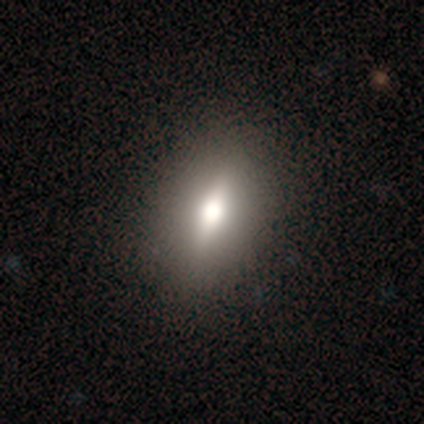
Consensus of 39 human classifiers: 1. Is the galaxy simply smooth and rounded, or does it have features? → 46% smooth (tied), 46% featured or disk (tied), 8% star or artifact.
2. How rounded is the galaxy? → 67% in between, 28% round, 6% cigar-shaped.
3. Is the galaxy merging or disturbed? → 53% none, 6% minor disturbance, 3% major disturbance, 0% merger.